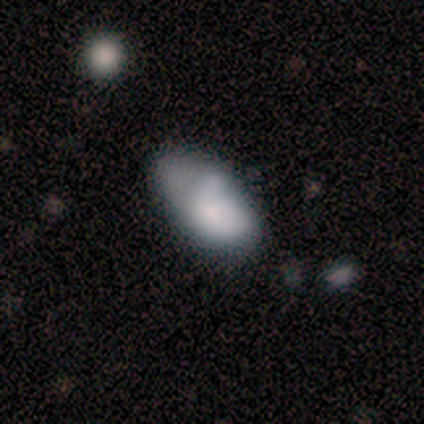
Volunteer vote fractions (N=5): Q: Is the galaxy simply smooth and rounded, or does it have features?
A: smooth — 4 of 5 (80%).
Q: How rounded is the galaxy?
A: in between — 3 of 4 (75%).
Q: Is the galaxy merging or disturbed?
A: none — 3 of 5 (60%).